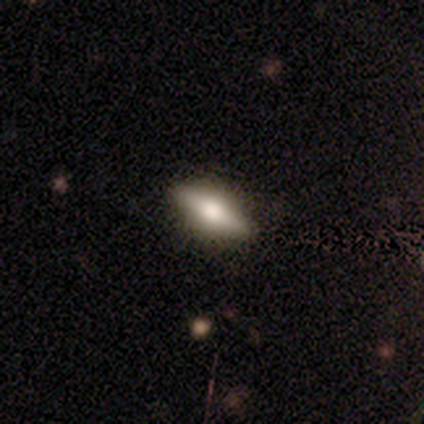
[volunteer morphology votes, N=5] Smooth or featured: featured or disk — 80% (smooth — 20%)
Edge-on disk: yes — 50% (tied with no — 50%)
Edge-on bulge: rounded — 100%
Merging: none — 100%